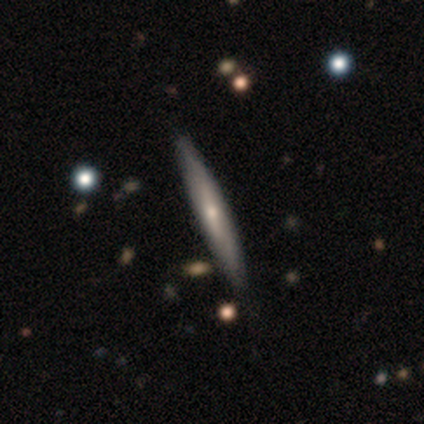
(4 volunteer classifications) This appears to be a featured or disk galaxy (50%) viewed edge-on (100%) with a rounded central bulge (100%). Merging: none (67%).